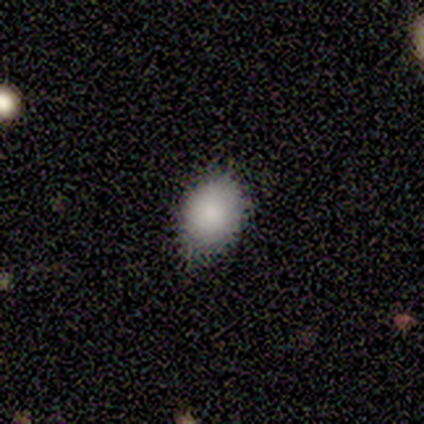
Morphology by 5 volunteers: Smooth or featured: smooth — 60% (star or artifact — 40%)
How rounded: in between — 67% (round — 33%)
Merging: none — 67% (minor disturbance — 33%)